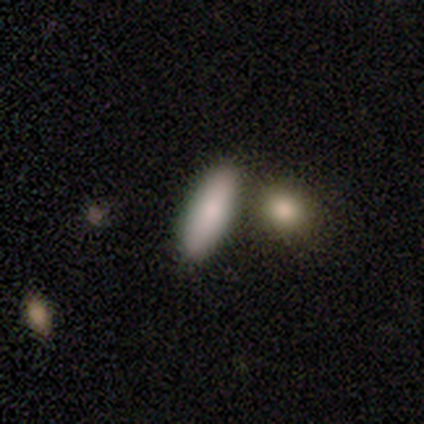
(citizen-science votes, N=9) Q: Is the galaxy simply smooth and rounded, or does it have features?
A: smooth — 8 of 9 (89%).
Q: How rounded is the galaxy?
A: in between — 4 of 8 (50%, tied with cigar-shaped).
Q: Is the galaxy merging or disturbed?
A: none — 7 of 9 (78%).